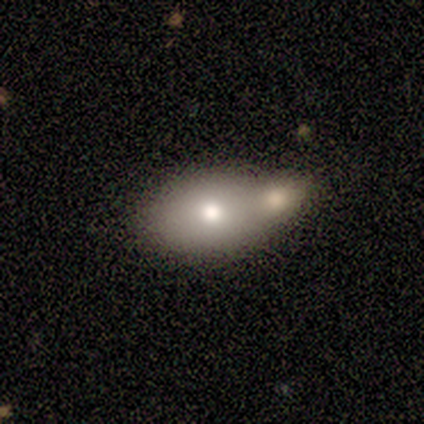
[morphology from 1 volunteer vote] Smooth or featured?
  - featured or disk: 100% *
  - smooth: 0%
  - star or artifact: 0%
Edge-on disk?
  - no: 100% *
  - yes: 0%
Bar?
  - no: 100% *
  - strong: 0%
  - weak: 0%
Spiral arms?
  - no: 100% *
  - yes: 0%
Bulge size?
  - moderate: 100% *
  - dominant: 0%
  - large: 0%
  - small: 0%
  - none: 0%
Merging?
  - merger: 100% *
  - none: 0%
  - minor disturbance: 0%
  - major disturbance: 0%